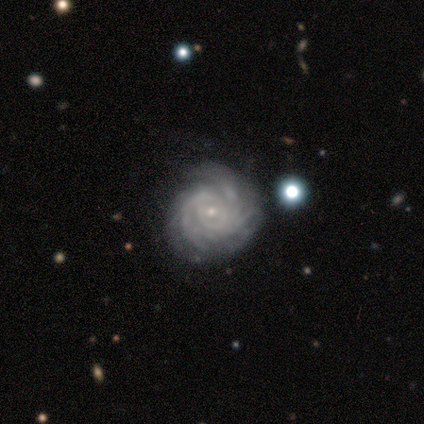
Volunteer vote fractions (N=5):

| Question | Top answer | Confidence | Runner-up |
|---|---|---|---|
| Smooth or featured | featured or disk | 80% | star or artifact (20%) |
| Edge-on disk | no | 100% | — |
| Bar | weak | 50% | strong (25%) |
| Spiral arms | yes | 100% | — |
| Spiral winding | tight | 75% | medium (25%) |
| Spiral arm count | more than 4 | 50% | 3 (25%) |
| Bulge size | small | 100% | — |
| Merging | none | 100% | — |